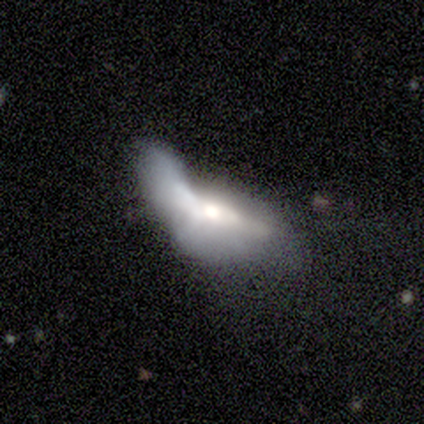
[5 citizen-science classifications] featured or disk 60%, smooth 40%, star or artifact 0%. Down the decision tree: edge-on disk — yes (67%); edge-on bulge — rounded (100%); merging — major disturbance (40%, tied with merger).